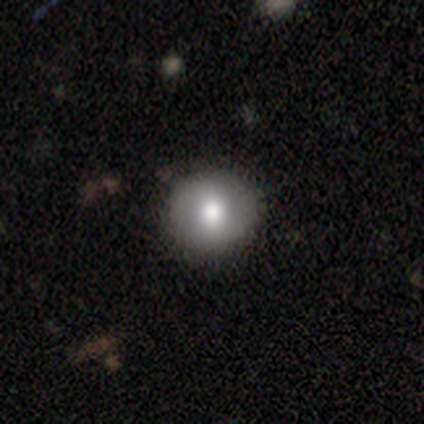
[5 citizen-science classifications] smooth 60%, featured or disk 40%, star or artifact 0%. Down the decision tree: how rounded — round (100%); merging — none (100%).